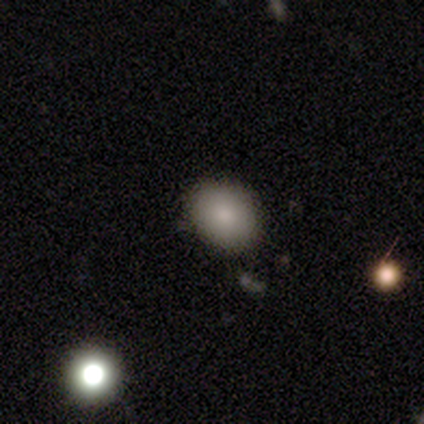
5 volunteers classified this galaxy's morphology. This appears to be a smooth galaxy with no disk features (100%) that is round (80%). Merging: none (100%).